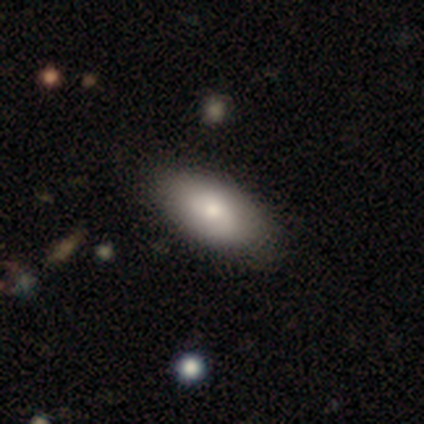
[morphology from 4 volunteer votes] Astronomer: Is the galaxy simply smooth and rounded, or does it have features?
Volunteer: smooth — 100%.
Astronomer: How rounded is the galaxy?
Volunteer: in between — 100%.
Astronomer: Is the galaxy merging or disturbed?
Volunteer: none — 75%.